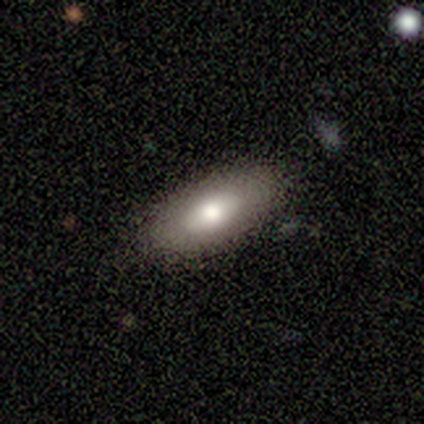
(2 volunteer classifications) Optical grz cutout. It shows a smooth galaxy with no disk features (50%, tied with star or artifact) that is in between round and cigar-shaped (100%). Merging: none (100%).